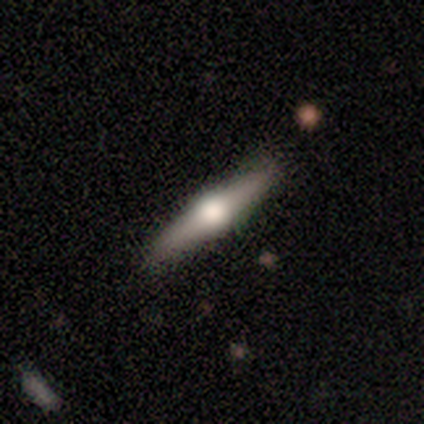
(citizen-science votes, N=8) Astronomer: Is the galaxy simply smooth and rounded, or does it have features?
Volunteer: featured or disk — 50% (runner-up: smooth, 38%).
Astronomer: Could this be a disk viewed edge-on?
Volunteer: yes — 100%.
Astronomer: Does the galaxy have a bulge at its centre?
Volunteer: rounded — 100%.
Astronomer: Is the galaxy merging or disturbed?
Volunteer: none — 100%.